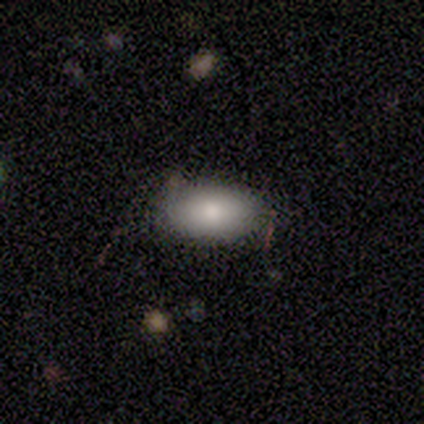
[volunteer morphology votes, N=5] A smooth galaxy with no disk features (100%) that is in between round and cigar-shaped (80%).

Vote fractions:
- Smooth or featured? smooth: 100% / featured or disk: 0% / star or artifact: 0%
- How rounded? in between: 80% / round: 20% / cigar-shaped: 0%
- Merging? none: 60% / minor disturbance: 40% / major disturbance: 0% / merger: 0%